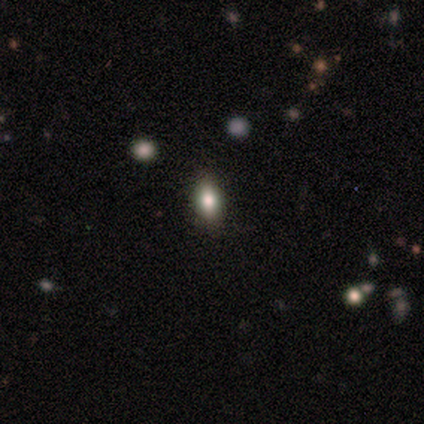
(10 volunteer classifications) Smooth or featured? smooth (90%)
How rounded? in between (67%)
Merging? none (56%)